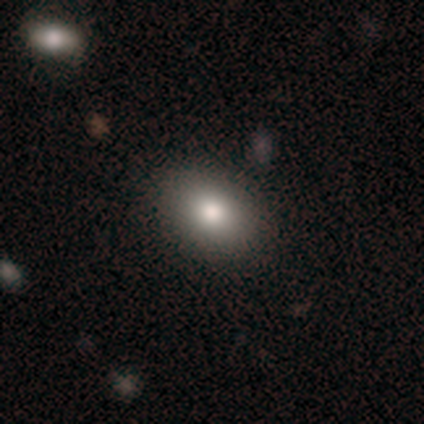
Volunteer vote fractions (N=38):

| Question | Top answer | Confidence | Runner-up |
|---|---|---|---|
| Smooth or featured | smooth | 87% | featured or disk (11%) |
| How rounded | in between | 73% | round (27%) |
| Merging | none | 70% | minor disturbance (3%) |